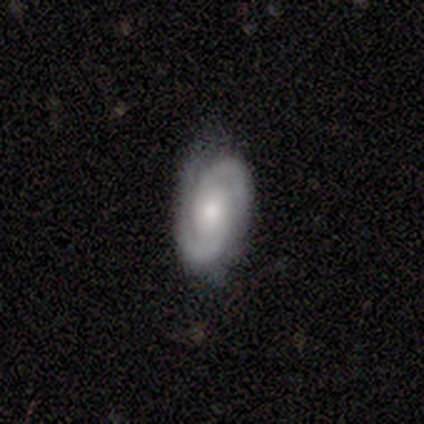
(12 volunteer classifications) Morphology: type=featured or disk (92%); edge-on=no (100%); bar=no (45%); spiral arms=yes (100%); winding=tight (55%); arm count=2 (73%); bulge=moderate (73%); merging=none (92%).